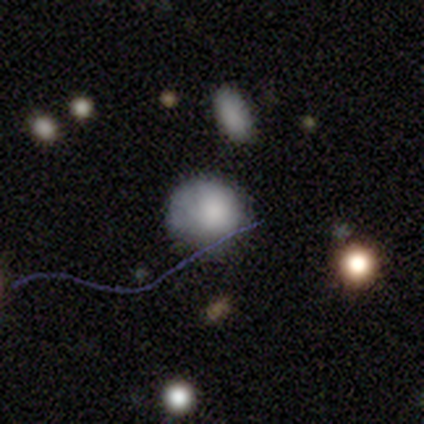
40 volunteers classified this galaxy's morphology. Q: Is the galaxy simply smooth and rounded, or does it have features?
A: smooth — 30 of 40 (75%).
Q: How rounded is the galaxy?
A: round — 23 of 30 (77%).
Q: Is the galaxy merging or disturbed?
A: none — 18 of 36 (50%).